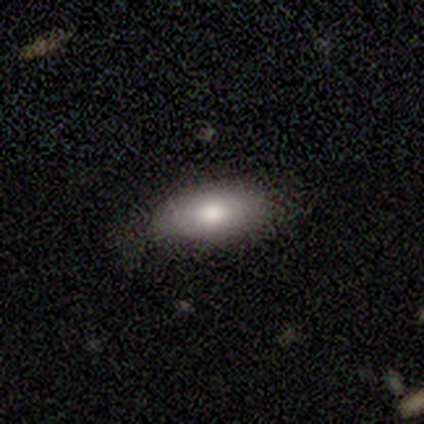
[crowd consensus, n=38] Smooth or featured?
  - smooth: 76% *
  - featured or disk: 18%
  - star or artifact: 5%
How rounded?
  - in between: 83% *
  - cigar-shaped: 17%
  - round: 0%
Merging?
  - none: 75% *
  - minor disturbance: 17%
  - merger: 6%
  - major disturbance: 3%